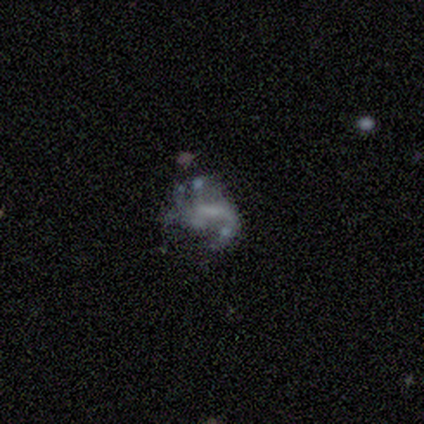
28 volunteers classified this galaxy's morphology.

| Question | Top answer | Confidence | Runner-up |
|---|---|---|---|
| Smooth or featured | featured or disk | 68% | star or artifact (18%) |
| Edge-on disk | no | 100% | — |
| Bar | no | 42% | weak (37%) |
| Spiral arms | yes | 53% | no (47%) |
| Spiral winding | medium | 40% | tied: loose (40%) |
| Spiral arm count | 1 | 30% | tied: 2 (30%), can't tell (30%) |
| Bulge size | none | 47% | small (37%) |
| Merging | major disturbance | 35% | none (30%) |